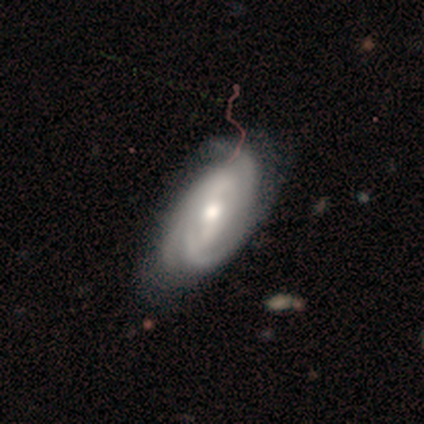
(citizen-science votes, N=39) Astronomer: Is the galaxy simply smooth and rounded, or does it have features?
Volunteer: featured or disk — 97%.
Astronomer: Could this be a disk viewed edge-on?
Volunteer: no — 97%.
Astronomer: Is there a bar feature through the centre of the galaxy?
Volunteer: strong — 35%, tied with no at 35%.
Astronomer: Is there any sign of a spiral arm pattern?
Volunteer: yes — 100%.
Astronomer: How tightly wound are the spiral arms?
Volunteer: tight — 59%.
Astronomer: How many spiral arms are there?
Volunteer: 3 — 43% (runner-up: 2, 30%).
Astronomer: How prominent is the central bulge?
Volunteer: moderate — 73%.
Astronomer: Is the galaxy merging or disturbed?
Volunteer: none — 51%.